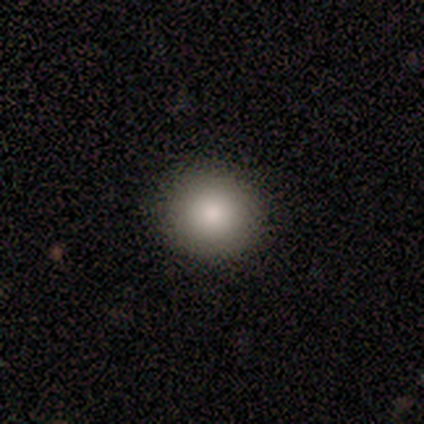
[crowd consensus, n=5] Smooth or featured: smooth — 60% (star or artifact — 40%)
How rounded: round — 67% (in between — 33%)
Merging: none — 100%